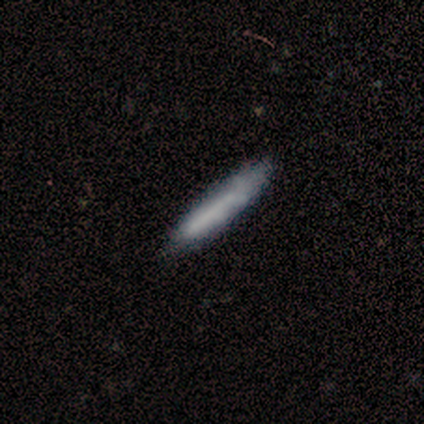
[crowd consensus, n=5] Smooth or featured? smooth (60%)
How rounded? cigar-shaped (100%)
Merging? none (60%)